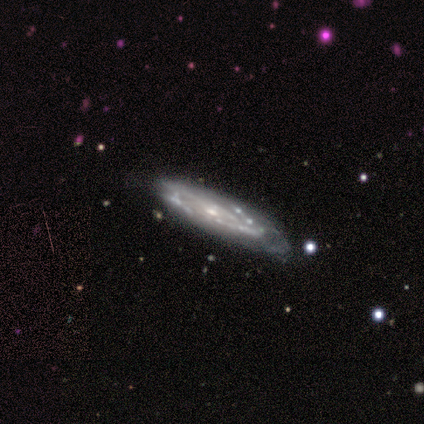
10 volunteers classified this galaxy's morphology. smooth-or-featured: featured or disk: 90% | smooth: 10% | star or artifact: 0%
  disk-edge-on: no: 56% | yes: 44%
    bar: no: 100% | strong: 0% | weak: 0%
    has-spiral-arms: yes: 80% | no: 20%
      spiral-winding: tight: 75% | medium: 25% | loose: 0%
      spiral-arm-count: can't tell: 75% | 3: 25% | 1: 0% | 2: 0% | 4: 0% | more than 4: 0%
    bulge-size: small: 100% | dominant: 0% | large: 0% | moderate: 0% | none: 0%
  merging: none: 70% | minor disturbance: 20% | major disturbance: 10% | merger: 0%